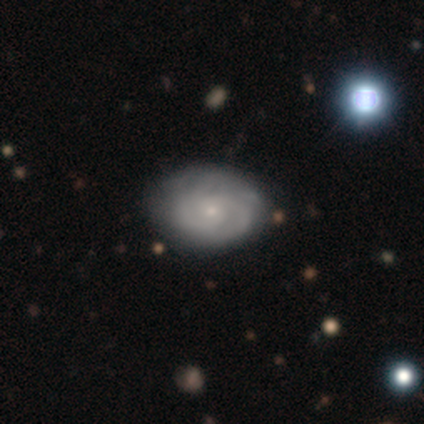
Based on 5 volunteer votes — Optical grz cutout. It shows a smooth galaxy with no disk features (60%) that is in between round and cigar-shaped (67%). Merging: none (100%).